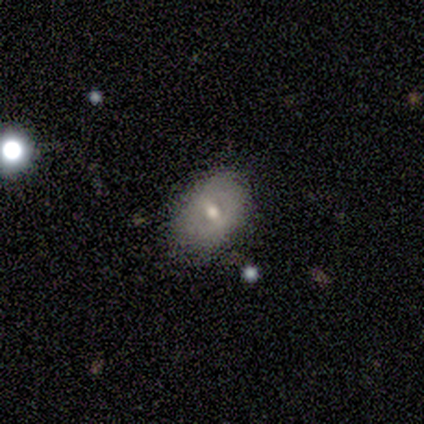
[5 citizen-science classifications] smooth 60%, featured or disk 40%, star or artifact 0%. Down the decision tree: how rounded — in between (100%); merging — none (100%).